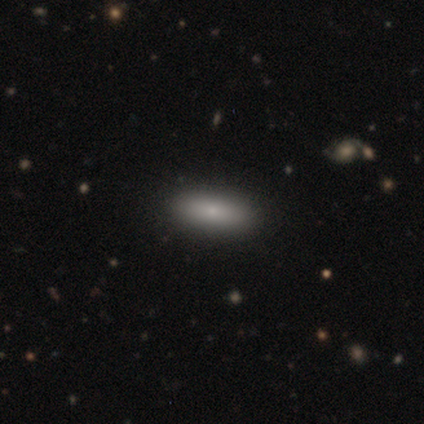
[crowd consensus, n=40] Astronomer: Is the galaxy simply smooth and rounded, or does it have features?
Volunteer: smooth — 78%.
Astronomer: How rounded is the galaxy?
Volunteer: in between — 61%.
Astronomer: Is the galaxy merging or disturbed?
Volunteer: none — 94%.